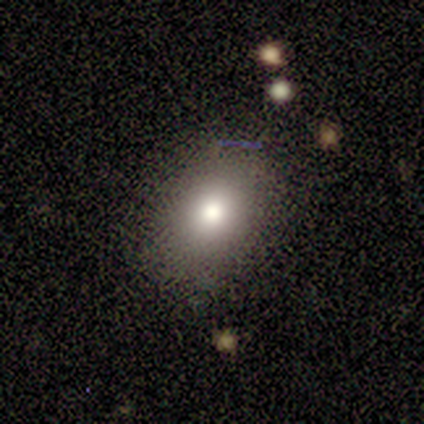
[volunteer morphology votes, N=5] Volunteers were most divided on "merging": none: 75%, minor disturbance: 25%, major disturbance: 0%, merger: 0%. More confident: how rounded — in between (100%); smooth or featured — smooth (80%).